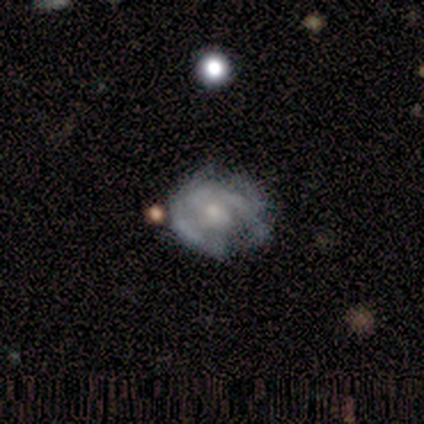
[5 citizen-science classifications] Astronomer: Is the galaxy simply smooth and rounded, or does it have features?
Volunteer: featured or disk — 100%.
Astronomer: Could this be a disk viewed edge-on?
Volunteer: no — 100%.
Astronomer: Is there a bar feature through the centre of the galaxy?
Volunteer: no — 100%.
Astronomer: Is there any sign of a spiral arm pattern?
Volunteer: yes — 80%.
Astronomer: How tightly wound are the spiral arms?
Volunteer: tight — 75%.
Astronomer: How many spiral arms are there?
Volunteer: can't tell — 50%.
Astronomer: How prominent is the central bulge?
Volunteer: moderate — 100%.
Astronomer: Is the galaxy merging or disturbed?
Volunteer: none — 40%, tied with minor disturbance at 40%.